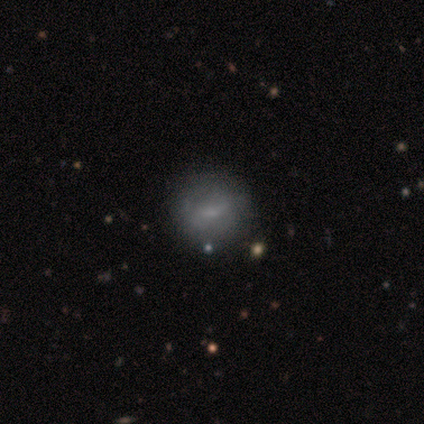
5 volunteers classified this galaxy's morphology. Volunteers were most divided on "smooth or featured" (2-way tie): smooth: 40%, star or artifact: 40%, featured or disk: 20%; "how rounded" (2-way tie): round: 50%, in between: 50%, cigar-shaped: 0%. More confident: merging — none (67%).